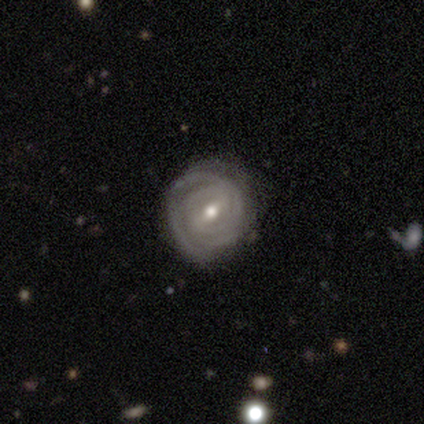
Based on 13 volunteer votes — Overall: featured or disk (100%). Edge-on disk: no (100%). Bar: weak (46%; strong 31%). Spiral arms: yes (100%). Spiral arm count: can't tell (62%). Spiral winding: tight (92%). Bulge size: moderate (69%). Merging: none (92%).